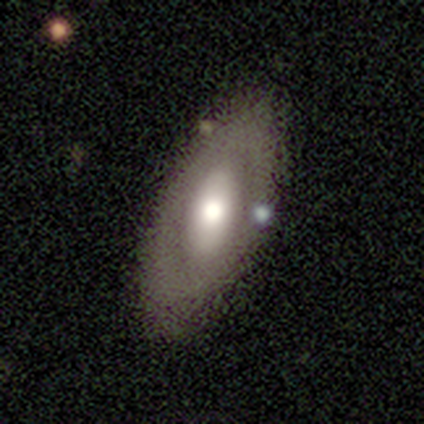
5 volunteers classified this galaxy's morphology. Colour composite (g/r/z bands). It shows a featured or disk galaxy (60%) with no bar (67%), no spiral arms (67%) and a moderate central bulge (100%). Merging: none (80%).